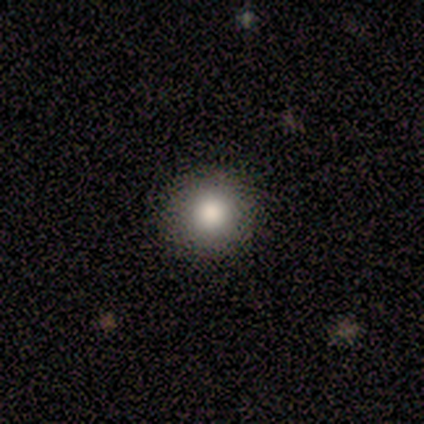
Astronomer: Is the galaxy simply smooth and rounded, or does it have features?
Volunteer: smooth — 75%.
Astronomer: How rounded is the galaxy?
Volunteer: round — 100%.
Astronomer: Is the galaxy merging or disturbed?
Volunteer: none — 100%.